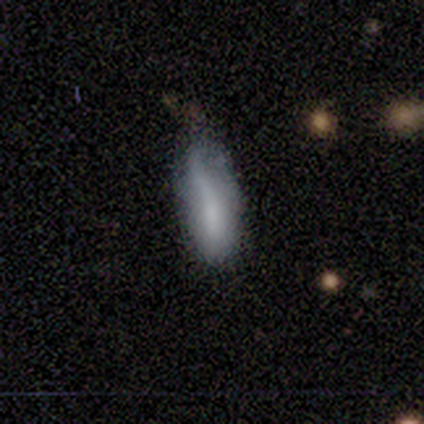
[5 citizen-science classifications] This is clearly a smooth galaxy (100%). How rounded: likely in between (60%). Merging: marginally major disturbance (40%).